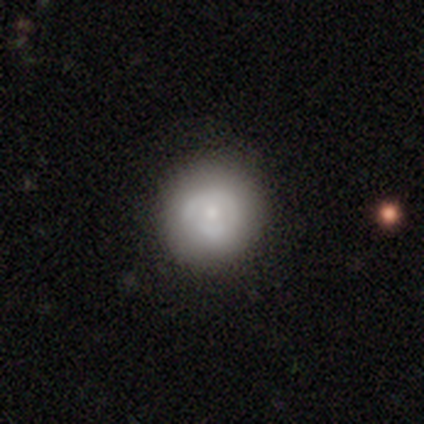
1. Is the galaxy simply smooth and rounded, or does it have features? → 52% smooth, 42% featured or disk, 5% star or artifact.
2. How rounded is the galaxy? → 88% round, 12% in between, 0% cigar-shaped.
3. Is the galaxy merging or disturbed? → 37% none, 11% minor disturbance, 4% merger, 1% major disturbance.